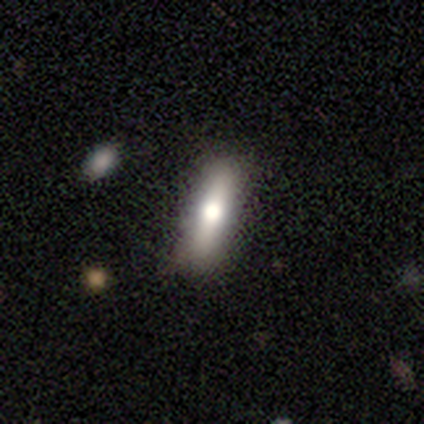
Overall: smooth (60%; featured or disk 40%). How rounded: cigar-shaped (67%; in between 33%). Merging: none (100%).